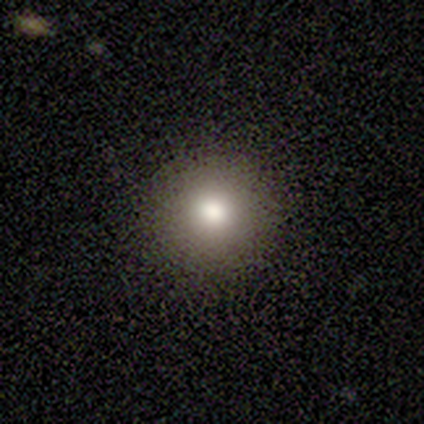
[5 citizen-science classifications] Smooth or featured? smooth (80%)
How rounded? round (100%)
Merging? none (100%)